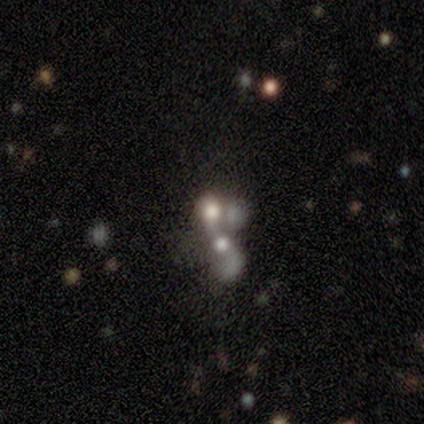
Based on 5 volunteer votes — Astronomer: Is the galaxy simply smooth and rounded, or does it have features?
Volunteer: featured or disk — 80%.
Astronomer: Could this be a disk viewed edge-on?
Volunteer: no — 100%.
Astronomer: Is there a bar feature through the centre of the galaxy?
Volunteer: no — 100%.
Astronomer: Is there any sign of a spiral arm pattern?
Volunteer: no — 100%.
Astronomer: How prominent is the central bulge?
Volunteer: large — 75%.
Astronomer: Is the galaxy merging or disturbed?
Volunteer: merger — 75%.